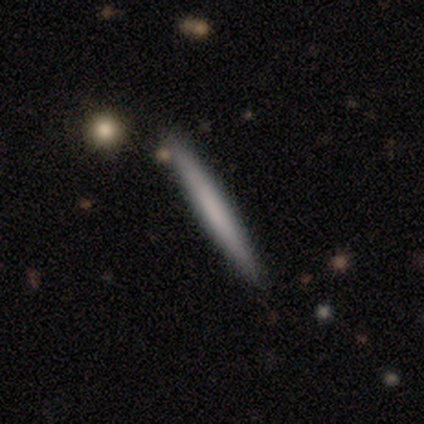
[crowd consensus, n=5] smooth_or_featured: smooth (p=0.60) [alt: featured or disk p=0.40]
how_rounded: cigar-shaped (p=1.00)
merging: none (p=0.40) [tied with: minor disturbance p=0.40]